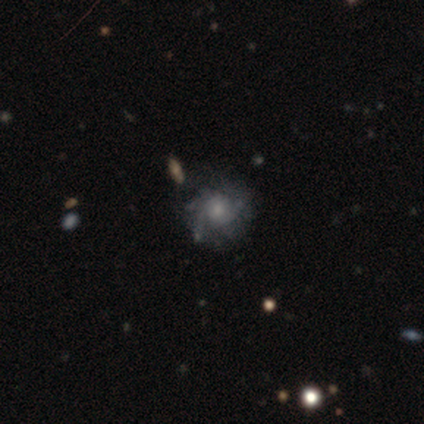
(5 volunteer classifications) smooth-or-featured: featured or disk: 100% | smooth: 0% | star or artifact: 0%
  disk-edge-on: no: 100% | yes: 0%
    bar: no: 80% | weak: 20% | strong: 0%
    has-spiral-arms: yes: 80% | no: 20%
      spiral-winding: medium: 50% | tight: 25% | loose: 25%
      spiral-arm-count: 3: 75% | can't tell: 25% | 1: 0% | 2: 0% | 4: 0% | more than 4: 0%
    bulge-size: small: 40% | large: 20% | moderate: 20% | none: 20% | dominant: 0%
  merging: none: 80% | major disturbance: 20% | minor disturbance: 0% | merger: 0%